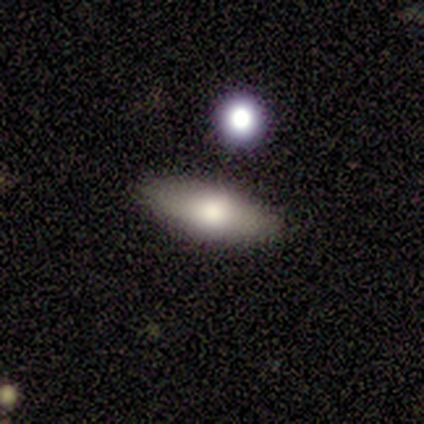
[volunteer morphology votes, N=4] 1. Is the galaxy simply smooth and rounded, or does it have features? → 100% featured or disk, 0% smooth, 0% star or artifact.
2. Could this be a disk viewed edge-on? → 75% yes, 25% no.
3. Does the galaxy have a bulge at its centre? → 67% none, 33% rounded, 0% boxy.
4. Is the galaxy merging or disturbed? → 100% none, 0% minor disturbance, 0% major disturbance, 0% merger.